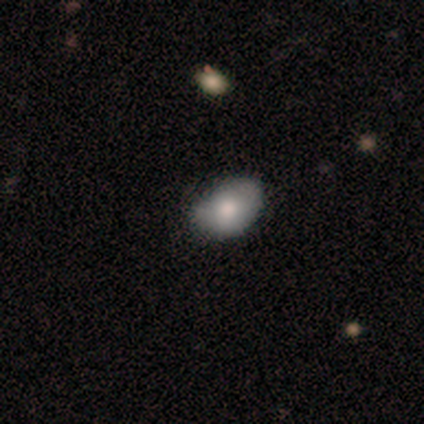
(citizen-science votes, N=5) Overall: smooth (100%). How rounded: in between (100%). Merging: none (60%; minor disturbance 40%).